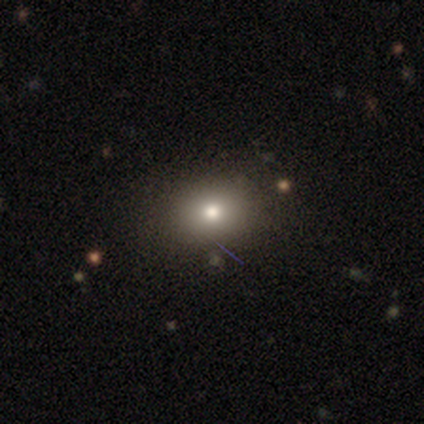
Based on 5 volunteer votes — This is clearly a smooth galaxy (80%). How rounded: likely round (75%). Merging: clearly none (80%).